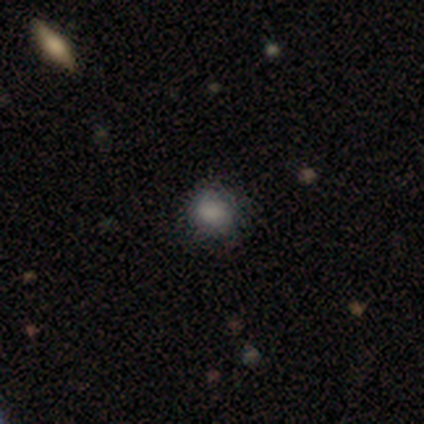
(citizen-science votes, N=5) Smooth or featured? smooth (80%)
How rounded? round (75%)
Merging? minor disturbance (75%)